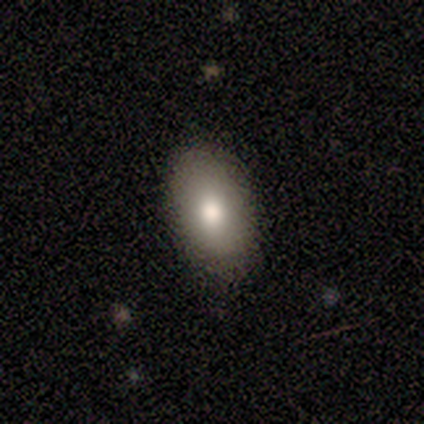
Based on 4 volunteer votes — Morphology: type=smooth (75%); roundness=in between (67%); merging=none (100%).